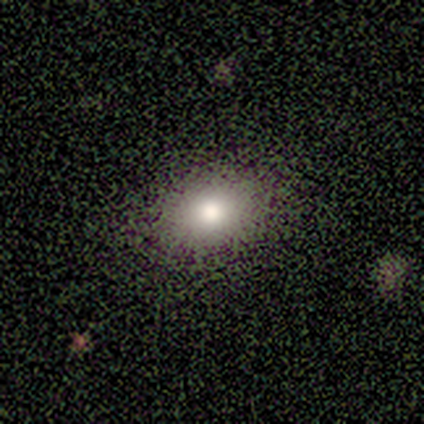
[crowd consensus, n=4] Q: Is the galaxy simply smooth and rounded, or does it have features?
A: smooth — 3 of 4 (75%).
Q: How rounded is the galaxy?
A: round — 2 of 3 (67%).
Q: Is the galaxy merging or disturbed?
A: none — 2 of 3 (67%).